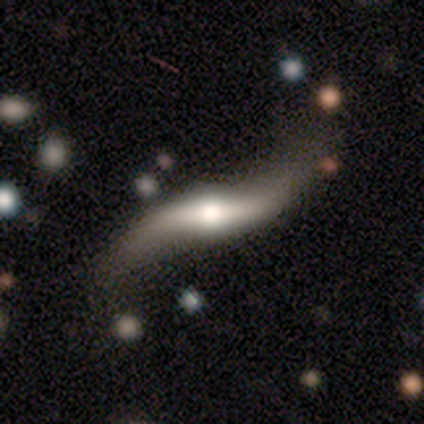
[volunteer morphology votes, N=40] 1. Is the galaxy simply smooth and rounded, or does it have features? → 82% featured or disk, 15% smooth, 2% star or artifact.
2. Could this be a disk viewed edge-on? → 76% no, 24% yes.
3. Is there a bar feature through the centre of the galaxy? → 56% strong, 28% no, 16% weak.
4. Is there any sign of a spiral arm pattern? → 100% yes, 0% no.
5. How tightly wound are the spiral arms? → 96% loose, 4% medium, 0% tight.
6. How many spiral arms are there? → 96% 2, 4% can't tell, 0% 1, 0% 3, 0% 4, 0% more than 4.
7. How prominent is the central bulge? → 56% moderate, 32% large, 8% small, 4% none, 0% dominant.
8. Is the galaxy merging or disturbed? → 31% none, 18% major disturbance, 15% minor disturbance, 3% merger.